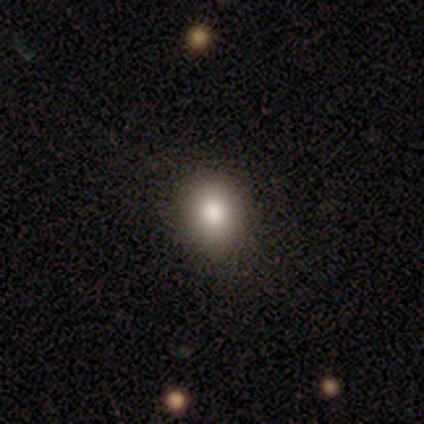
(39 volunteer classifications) Volunteers were most divided on "how rounded" (2-way tie): round: 50%, in between: 50%, cigar-shaped: 0%. More confident: merging — none (83%); smooth or featured — smooth (67%).